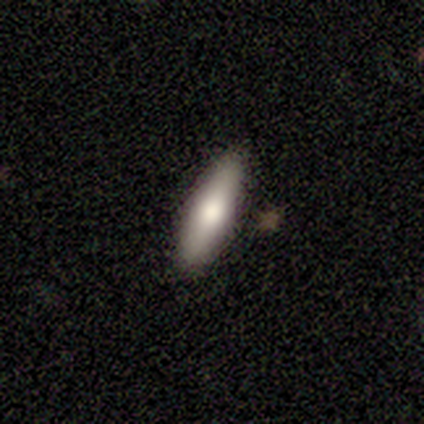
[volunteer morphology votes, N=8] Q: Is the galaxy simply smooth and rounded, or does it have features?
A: smooth — 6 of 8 (75%).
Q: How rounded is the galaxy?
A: cigar-shaped — 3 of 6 (50%).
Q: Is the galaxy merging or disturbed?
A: none — 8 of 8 (100%).